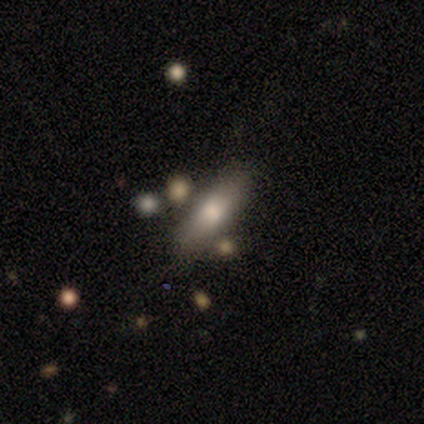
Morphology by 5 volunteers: Smooth or featured? 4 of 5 (80%) said smooth. How rounded? 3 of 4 (75%) said cigar-shaped. Merging? 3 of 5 (60%) said none.